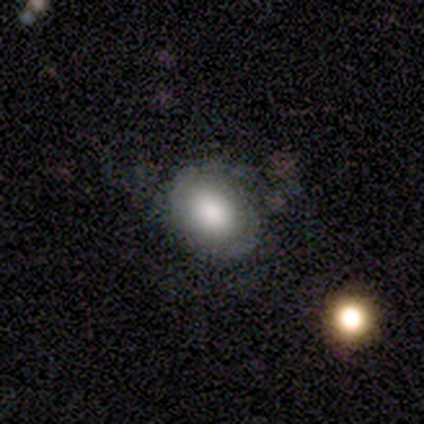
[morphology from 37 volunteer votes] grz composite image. It shows a smooth galaxy with no disk features (62%) that is in between round and cigar-shaped (57%). Merging: none (57%).